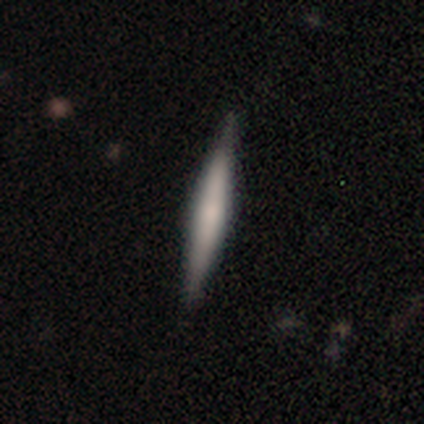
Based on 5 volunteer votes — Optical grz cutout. It shows a smooth galaxy with no disk features (60%) that is cigar-shaped (100%). Merging: none (100%).